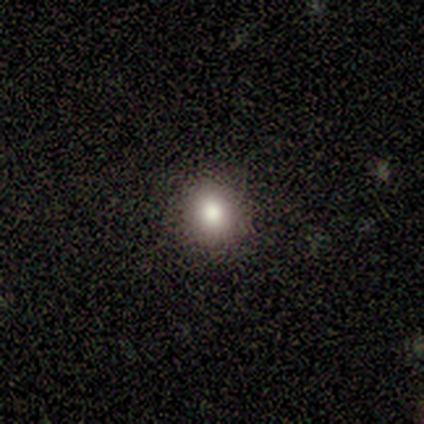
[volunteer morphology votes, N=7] A smooth galaxy with no disk features (86%) that is round (83%). Merging: none (71%).